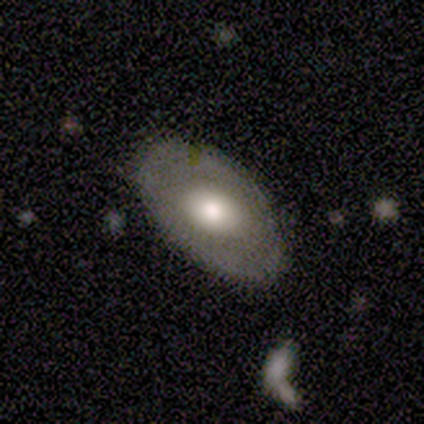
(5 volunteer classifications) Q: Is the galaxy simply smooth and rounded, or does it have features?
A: smooth — 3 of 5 (60%).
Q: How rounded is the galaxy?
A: in between — 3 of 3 (100%).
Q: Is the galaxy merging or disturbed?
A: none — 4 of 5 (80%).